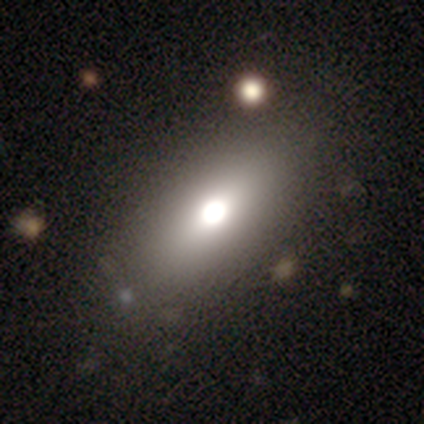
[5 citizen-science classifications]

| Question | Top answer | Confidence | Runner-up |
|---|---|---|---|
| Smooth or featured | smooth | 60% | featured or disk (40%) |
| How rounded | in between | 67% | round (33%) |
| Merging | none | 100% | — |